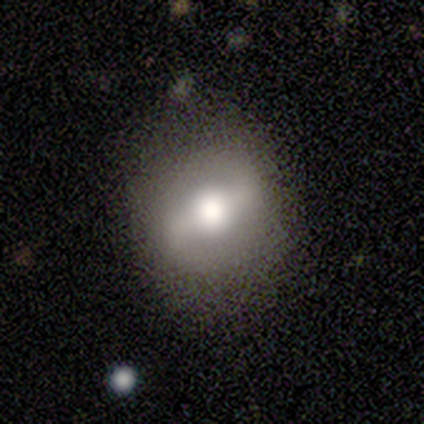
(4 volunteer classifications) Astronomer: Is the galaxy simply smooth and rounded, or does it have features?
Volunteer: featured or disk — 75%.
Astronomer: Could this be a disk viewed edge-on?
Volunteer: no — 100%.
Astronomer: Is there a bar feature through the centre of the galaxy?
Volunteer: strong — 33%, tied with weak and no at 33%.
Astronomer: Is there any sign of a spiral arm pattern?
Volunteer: yes — 100%.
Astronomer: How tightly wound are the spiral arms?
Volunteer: loose — 67%.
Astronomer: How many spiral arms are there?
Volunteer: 2 — 100%.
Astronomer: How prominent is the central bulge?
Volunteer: large — 67%.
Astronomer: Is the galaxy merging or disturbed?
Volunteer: none — 75%.